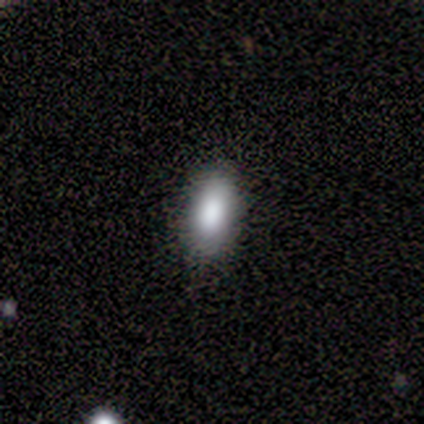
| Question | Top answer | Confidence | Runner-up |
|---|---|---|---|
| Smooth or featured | smooth | 75% | star or artifact (25%) |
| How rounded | in between | 100% | — |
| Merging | none | 100% | — |